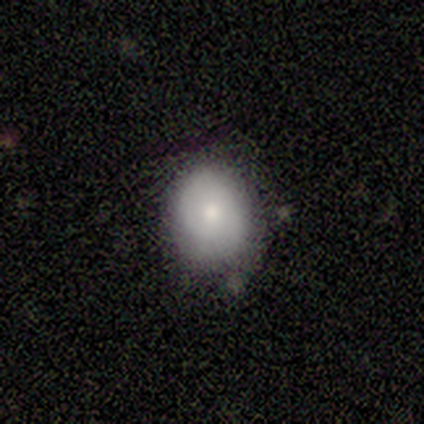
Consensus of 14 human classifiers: This is likely a smooth galaxy (64%). How rounded: possibly round (56%). Merging: likely none (77%).